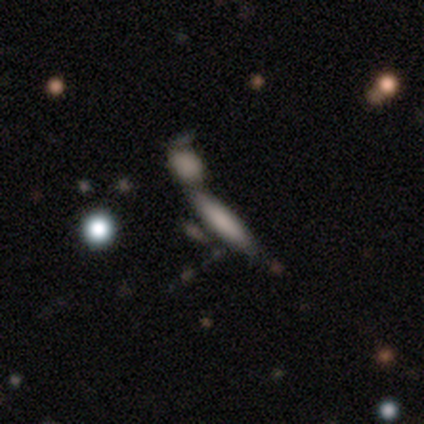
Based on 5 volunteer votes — Smooth or featured? 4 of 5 (80%) said smooth. How rounded? 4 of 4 (100%) said cigar-shaped. Merging? 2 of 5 (40%) said major disturbance.